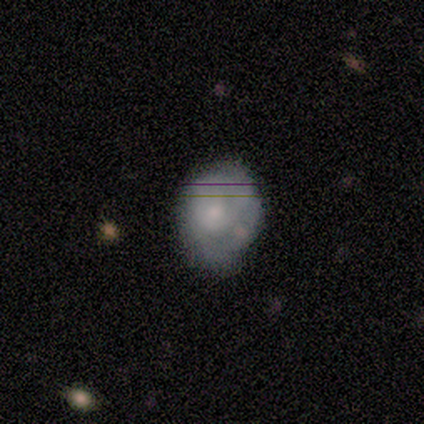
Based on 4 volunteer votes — featured or disk 75%, smooth 25%, star or artifact 0%. Down the decision tree: edge-on disk — no (100%); bar — no (100%); spiral arms — no (67%); bulge size — moderate (100%); merging — none (50%, tied with minor disturbance).